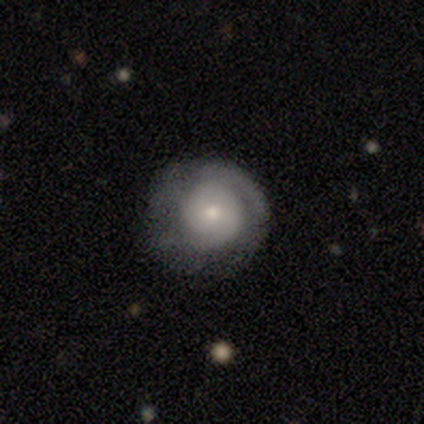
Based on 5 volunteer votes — A featured or disk galaxy (80%) with no bar (75%), tight (67%) spiral arms (75%) and a small central bulge (75%). Merging: none (80%).